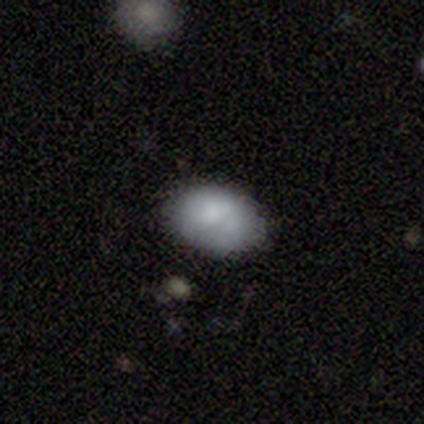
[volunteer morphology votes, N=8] type=smooth (50%); roundness=in between (100%); merging=none (71%).